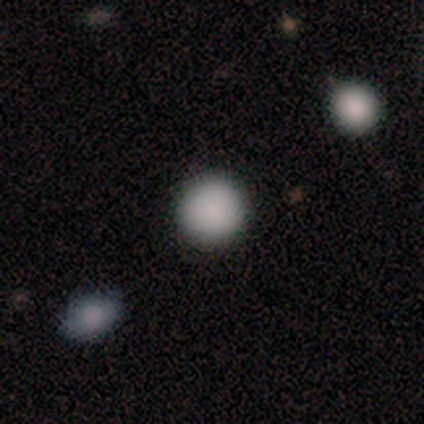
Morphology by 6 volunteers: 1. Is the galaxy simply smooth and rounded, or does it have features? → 100% smooth, 0% featured or disk, 0% star or artifact.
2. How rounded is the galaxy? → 100% round, 0% in between, 0% cigar-shaped.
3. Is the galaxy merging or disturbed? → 100% none, 0% minor disturbance, 0% major disturbance, 0% merger.